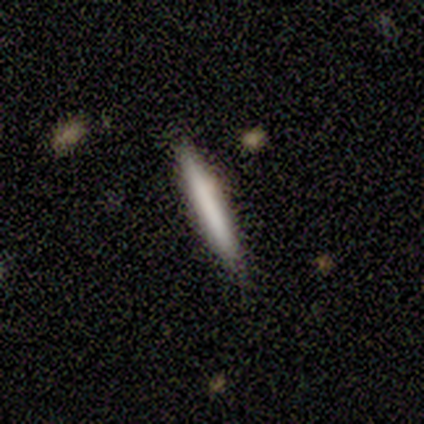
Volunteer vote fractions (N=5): A smooth galaxy with no disk features (40%, tied with star or artifact) that is in between round and cigar-shaped (50%, tied with cigar-shaped).

Vote fractions:
- Smooth or featured? smooth: 40% (tied) / star or artifact: 40% (tied) / featured or disk: 20%
- How rounded? in between: 50% (tied) / cigar-shaped: 50% (tied) / round: 0%
- Merging? minor disturbance: 67% / none: 33% / major disturbance: 0% / merger: 0%